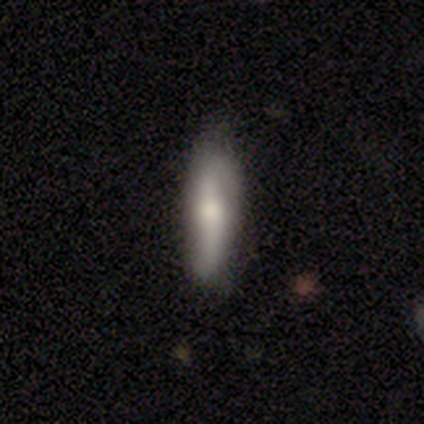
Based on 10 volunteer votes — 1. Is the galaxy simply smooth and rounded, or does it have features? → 70% smooth, 30% featured or disk, 0% star or artifact.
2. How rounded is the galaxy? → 57% cigar-shaped, 43% in between, 0% round.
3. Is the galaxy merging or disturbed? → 70% none, 30% minor disturbance, 0% major disturbance, 0% merger.